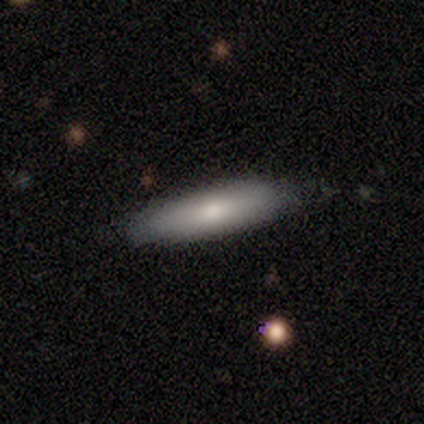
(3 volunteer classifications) smooth_or_featured: smooth (p=0.67) [alt: star or artifact p=0.33]
how_rounded: in between (p=0.50) [tied with: cigar-shaped p=0.50]
merging: minor disturbance (p=0.50) [tied with: merger p=0.50]